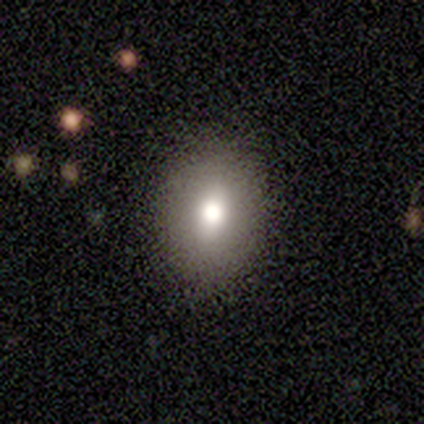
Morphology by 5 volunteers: Smooth or featured? 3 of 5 (60%) said smooth. How rounded? 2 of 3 (67%) said round. Merging? 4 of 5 (80%) said none.